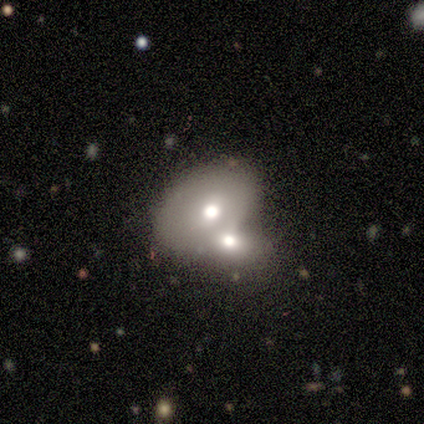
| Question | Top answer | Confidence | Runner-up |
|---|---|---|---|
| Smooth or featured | featured or disk | 60% | smooth (40%) |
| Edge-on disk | no | 100% | — |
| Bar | no | 67% | weak (33%) |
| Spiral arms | no | 100% | — |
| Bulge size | large | 33% | tied: moderate (33%), small (33%) |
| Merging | merger | 80% | none (20%) |